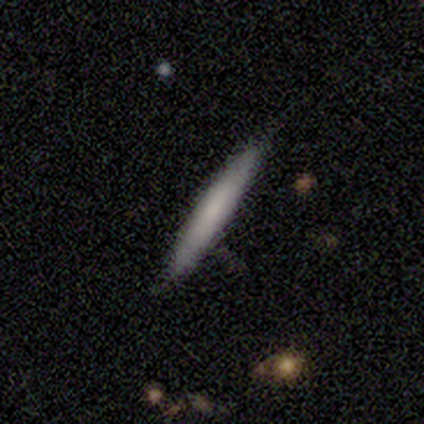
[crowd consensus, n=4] smooth-or-featured: smooth: 100% | featured or disk: 0% | star or artifact: 0%
  how-rounded: cigar-shaped: 100% | round: 0% | in between: 0%
  merging: none: 100% | minor disturbance: 0% | major disturbance: 0% | merger: 0%